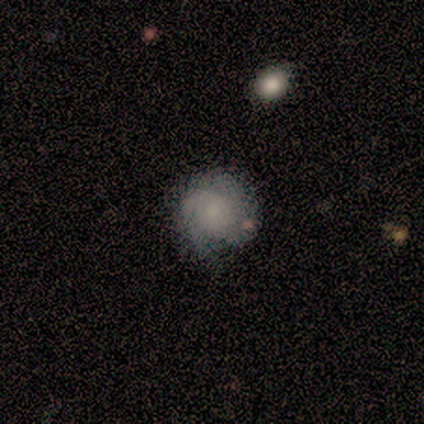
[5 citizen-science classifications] smooth 60%, featured or disk 40%, star or artifact 0%. Down the decision tree: how rounded — round (100%); merging — none (80%).